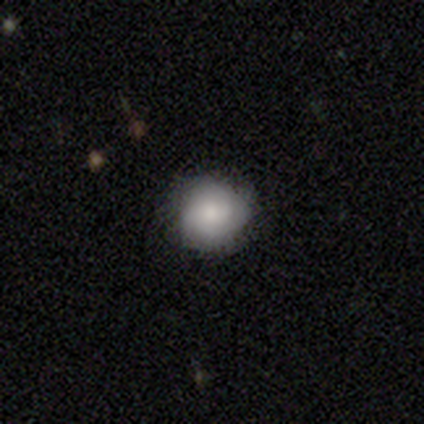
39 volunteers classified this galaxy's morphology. smooth-or-featured: smooth: 69% | featured or disk: 23% | star or artifact: 8%
  how-rounded: round: 81% | in between: 19% | cigar-shaped: 0%
  merging: none: 78% | minor disturbance: 19% | major disturbance: 3% | merger: 0%